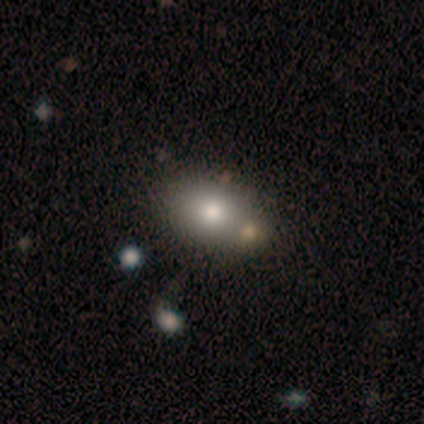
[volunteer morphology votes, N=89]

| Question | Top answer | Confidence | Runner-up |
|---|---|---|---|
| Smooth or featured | smooth | 67% | star or artifact (17%) |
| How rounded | in between | 75% | round (23%) |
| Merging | none | 64% | merger (20%) |